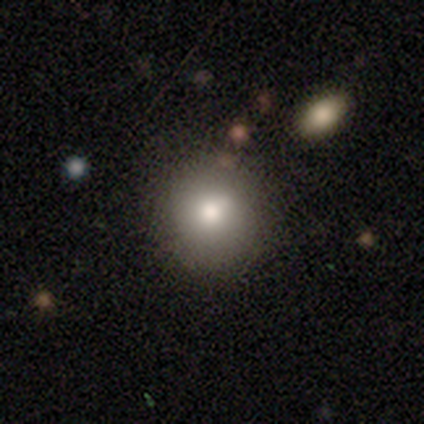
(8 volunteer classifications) A smooth galaxy with no disk features (75%) that is round (100%). Merging: none (71%).